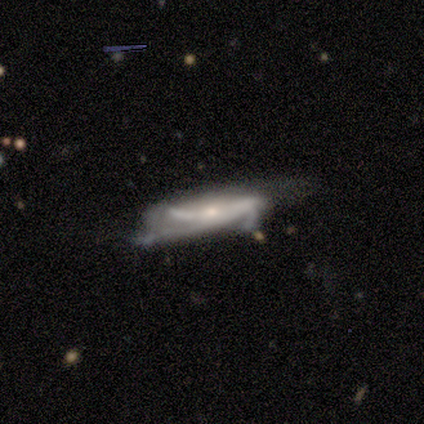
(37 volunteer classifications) Smooth or featured: featured or disk — 84% (smooth — 11%)
Edge-on disk: no — 61% (yes — 39%)
Bar: no — 47% (strong — 26%)
Spiral arms: yes — 79% (no — 21%)
Spiral winding: medium — 53% (loose — 27%)
Spiral arm count: can't tell — 33% (2 — 27%)
Bulge size: small — 74% (moderate — 26%)
Merging: none — 34% (minor disturbance — 29%)